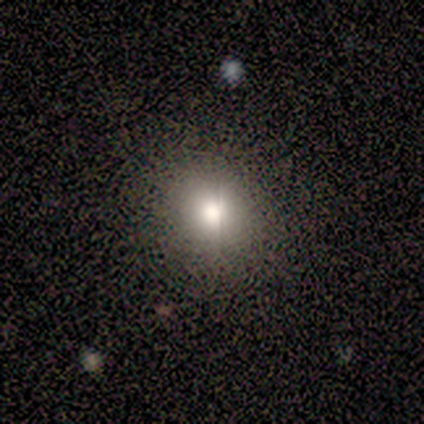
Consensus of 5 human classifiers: Overall: smooth (80%). How rounded: round (75%). Merging: none (50%, tied with minor disturbance).